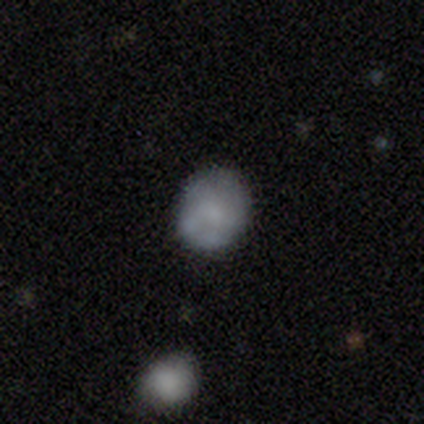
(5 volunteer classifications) Smooth or featured? 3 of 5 (60%) said smooth. How rounded? 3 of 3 (100%) said round. Merging? 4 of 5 (80%) said none.